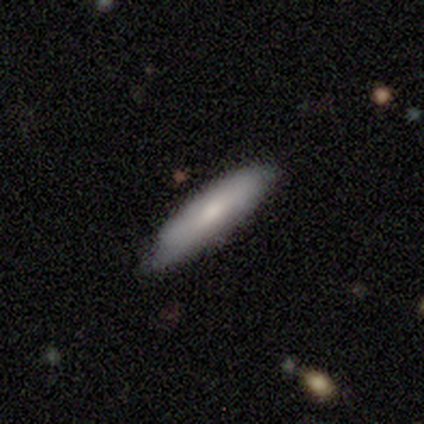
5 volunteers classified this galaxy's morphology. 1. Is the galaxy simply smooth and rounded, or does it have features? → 60% smooth, 40% featured or disk, 0% star or artifact.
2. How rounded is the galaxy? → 67% cigar-shaped, 33% in between, 0% round.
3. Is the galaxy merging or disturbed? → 100% none, 0% minor disturbance, 0% major disturbance, 0% merger.